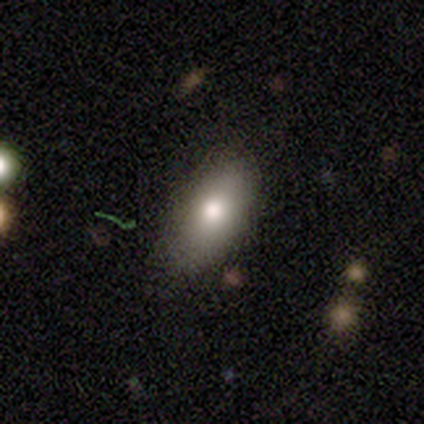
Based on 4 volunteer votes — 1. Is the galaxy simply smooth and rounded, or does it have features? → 50% smooth (tied), 50% featured or disk (tied), 0% star or artifact.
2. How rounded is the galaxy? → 100% in between, 0% round, 0% cigar-shaped.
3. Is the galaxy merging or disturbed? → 75% none, 25% minor disturbance, 0% major disturbance, 0% merger.